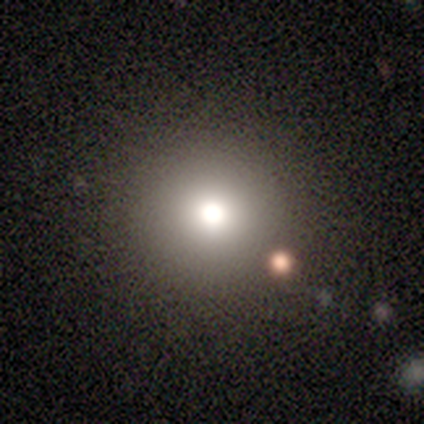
This appears to be a featured or disk galaxy (60%) with no bar (100%), no spiral arms (100%) and a large central bulge (33%, tied with moderate and small). Merging: none (100%).